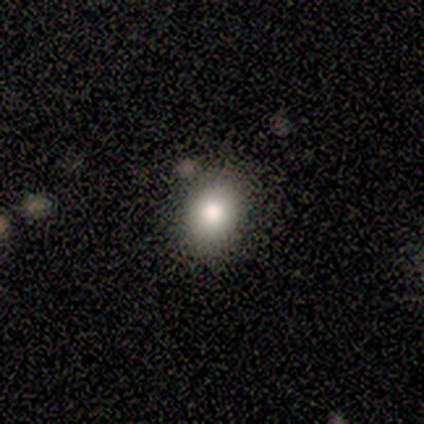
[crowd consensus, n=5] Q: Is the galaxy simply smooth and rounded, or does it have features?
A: smooth — 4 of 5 (80%).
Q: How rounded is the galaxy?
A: round — 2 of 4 (50%, tied with in between).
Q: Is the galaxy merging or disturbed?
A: none — 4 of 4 (100%).